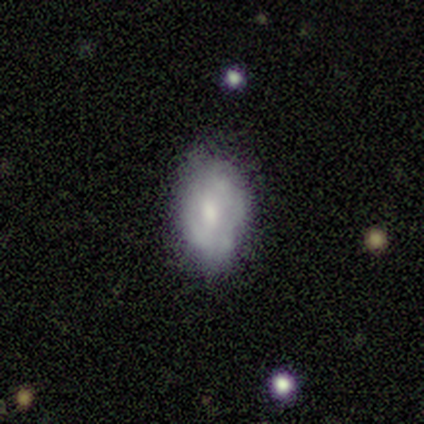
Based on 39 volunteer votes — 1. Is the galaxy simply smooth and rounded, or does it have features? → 56% featured or disk, 36% smooth, 8% star or artifact.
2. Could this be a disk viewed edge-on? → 95% no, 5% yes.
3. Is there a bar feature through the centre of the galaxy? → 71% no, 19% weak, 10% strong.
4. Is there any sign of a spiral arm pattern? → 71% no, 29% yes.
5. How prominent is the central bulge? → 62% moderate, 33% small, 5% none, 0% dominant, 0% large.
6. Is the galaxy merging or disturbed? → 61% none, 28% minor disturbance, 11% major disturbance, 0% merger.